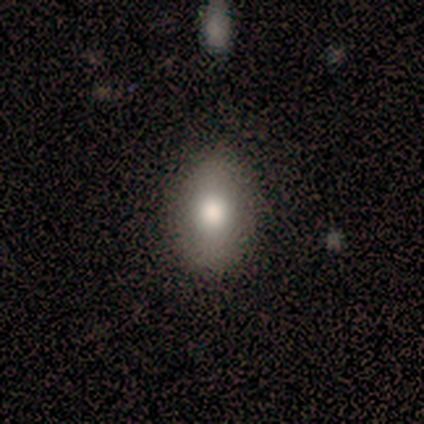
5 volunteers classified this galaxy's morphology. smooth-or-featured: smooth: 100% | featured or disk: 0% | star or artifact: 0%
  how-rounded: in between: 100% | round: 0% | cigar-shaped: 0%
  merging: none: 40% (tied) | minor disturbance: 40% (tied) | major disturbance: 20% | merger: 0%